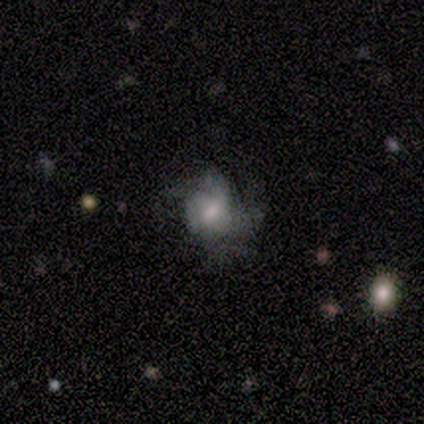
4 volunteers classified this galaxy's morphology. Volunteers were most divided on "merging": none: 50%, minor disturbance: 25%, major disturbance: 25%, merger: 0%. More confident: edge-on disk — no (100%); bar — no (100%); smooth or featured — featured or disk (75%); spiral arms — no (67%); bulge size — small (67%).